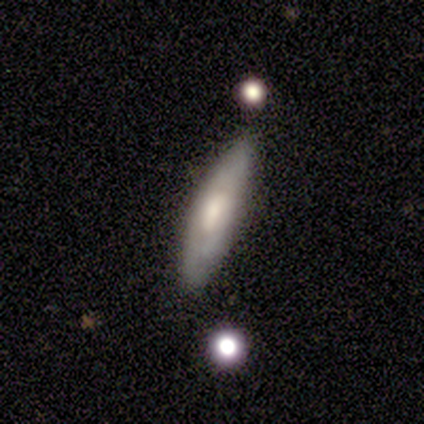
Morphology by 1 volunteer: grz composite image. It shows a featured or disk galaxy (100%) with a weak bar (100%), no spiral arms (100%) and a small central bulge (100%). Merging: none (100%).